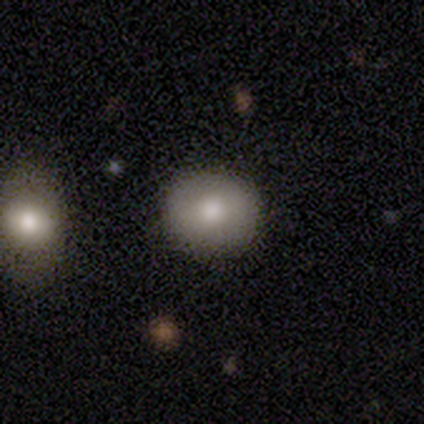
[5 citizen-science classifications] Smooth or featured? smooth (60%)
How rounded? round (100%)
Merging? none (100%)